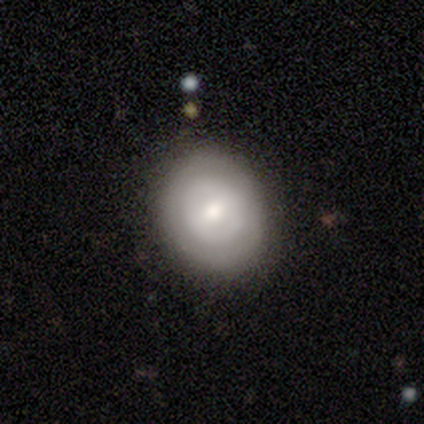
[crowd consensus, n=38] A featured or disk galaxy (50%) with no bar (67%), no spiral arms (67%) and a moderate central bulge (61%). Merging: none (97%).